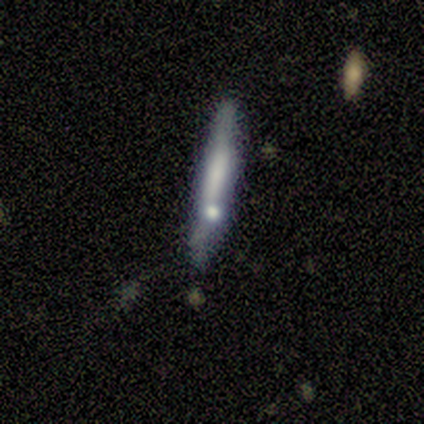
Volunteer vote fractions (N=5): Q: Smooth or featured?
A: featured or disk (60%); runner-up: smooth (20%)
Q: Edge-on disk?
A: yes (100%)
Q: Edge-on bulge?
A: rounded (67%); runner-up: none (33%)
Q: Merging?
A: none (50%); tied with: minor disturbance (50%)